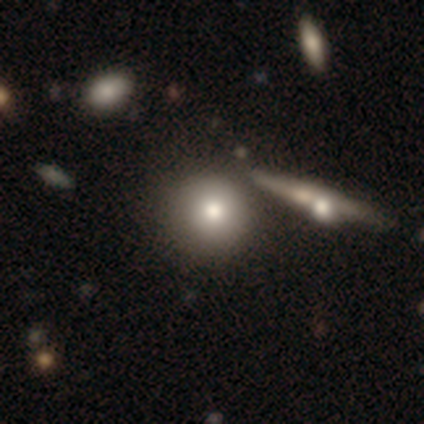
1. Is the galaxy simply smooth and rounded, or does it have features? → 77% smooth, 18% featured or disk, 5% star or artifact.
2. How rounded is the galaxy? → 93% round, 7% in between, 0% cigar-shaped.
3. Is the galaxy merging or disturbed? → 51% none, 16% merger, 14% minor disturbance, 0% major disturbance.